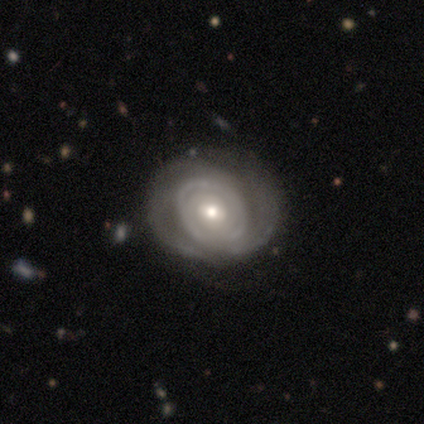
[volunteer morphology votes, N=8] smooth_or_featured: featured or disk (p=0.75) [alt: smooth p=0.25]
disk_edge_on: no (p=1.00)
bar: no (p=0.83) [alt: weak p=0.17]
has_spiral_arms: yes (p=0.67) [alt: no p=0.33]
spiral_winding: tight (p=0.75) [alt: loose p=0.25]
spiral_arm_count: 2 (p=0.50) [alt: 3 p=0.25]
bulge_size: moderate (p=0.50) [alt: small p=0.33]
merging: none (p=0.38) [alt: minor disturbance p=0.25]